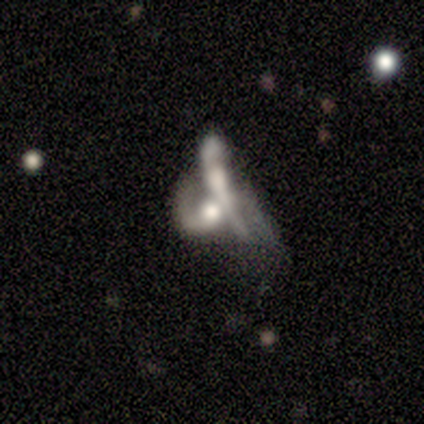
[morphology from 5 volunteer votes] Smooth or featured? 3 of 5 (60%) said featured or disk. Edge-on disk? 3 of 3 (100%) said no. Bar? 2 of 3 (67%) said no. Spiral arms? 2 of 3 (67%) said yes. Spiral winding? 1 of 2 (50%, tied with loose) said medium. Spiral arm count? 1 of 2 (50%, tied with can't tell) said 2. Bulge size? 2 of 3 (67%) said moderate. Merging? 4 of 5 (80%) said merger.